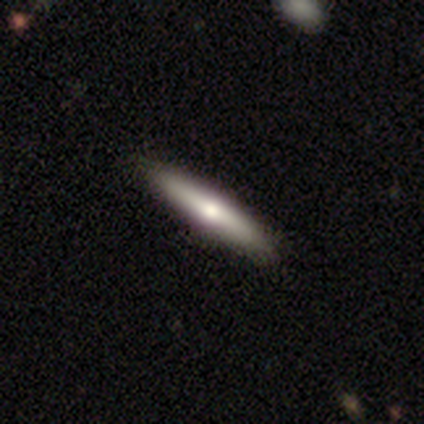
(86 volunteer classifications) Q: Smooth or featured?
A: smooth (50%); runner-up: featured or disk (43%)
Q: How rounded?
A: cigar-shaped (95%); runner-up: in between (5%)
Q: Merging?
A: none (92%); runner-up: minor disturbance (6%)